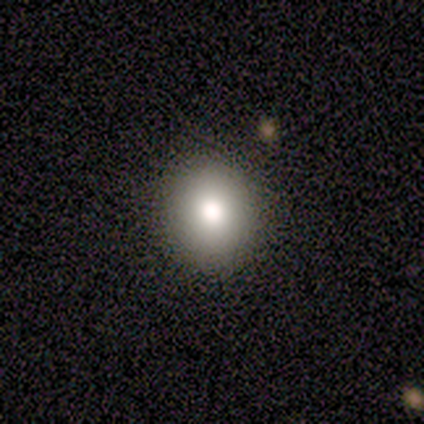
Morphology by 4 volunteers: smooth-or-featured: smooth: 50% (tied) | featured or disk: 50% (tied) | star or artifact: 0%
  how-rounded: round: 50% (tied) | in between: 50% (tied) | cigar-shaped: 0%
  merging: none: 75% | minor disturbance: 25% | major disturbance: 0% | merger: 0%